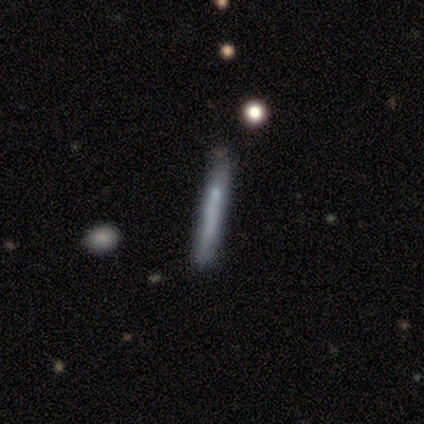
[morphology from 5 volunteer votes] smooth-or-featured: smooth: 40% (tied) | featured or disk: 40% (tied) | star or artifact: 20%
  how-rounded: cigar-shaped: 100% | round: 0% | in between: 0%
  merging: none: 75% | minor disturbance: 25% | major disturbance: 0% | merger: 0%